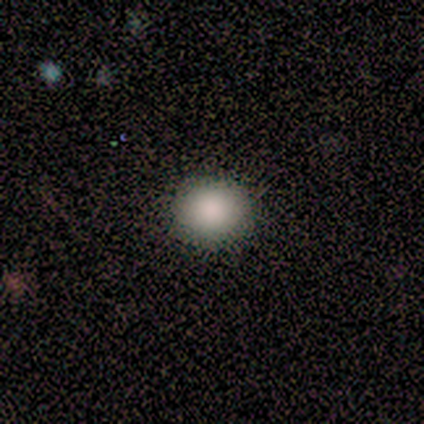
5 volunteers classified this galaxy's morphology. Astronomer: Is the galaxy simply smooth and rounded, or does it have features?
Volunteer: smooth — 100%.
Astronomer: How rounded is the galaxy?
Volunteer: round — 100%.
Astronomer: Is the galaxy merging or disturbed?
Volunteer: none — 80%.